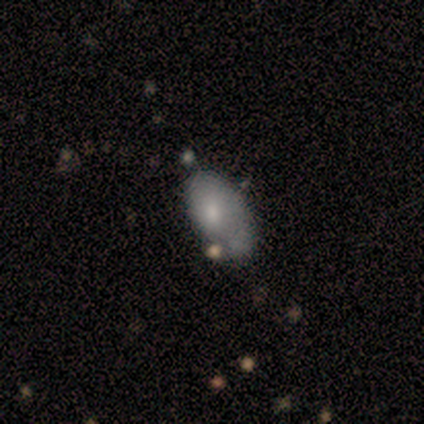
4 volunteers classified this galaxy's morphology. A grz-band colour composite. It shows a smooth galaxy with no disk features (100%) that is in between round and cigar-shaped (100%). Merging: minor disturbance (50%).